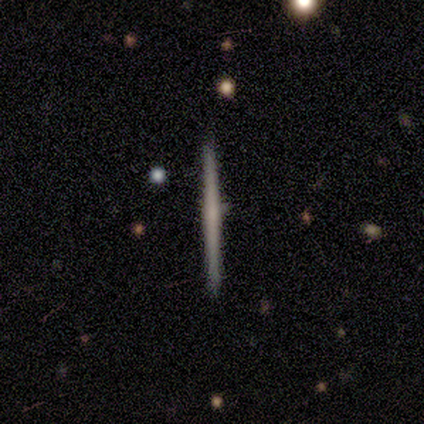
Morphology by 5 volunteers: Volunteers were most divided on "merging": none: 80%, minor disturbance: 20%, major disturbance: 0%, merger: 0%. More confident: smooth or featured — smooth (100%); how rounded — cigar-shaped (100%).